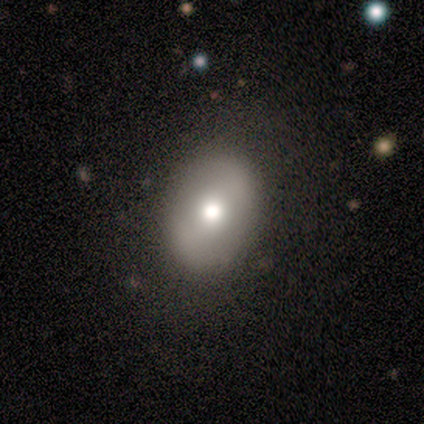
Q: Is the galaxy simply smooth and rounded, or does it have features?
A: smooth — 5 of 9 (56%).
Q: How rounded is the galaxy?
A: in between — 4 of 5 (80%).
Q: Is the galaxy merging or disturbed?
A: none — 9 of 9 (100%).